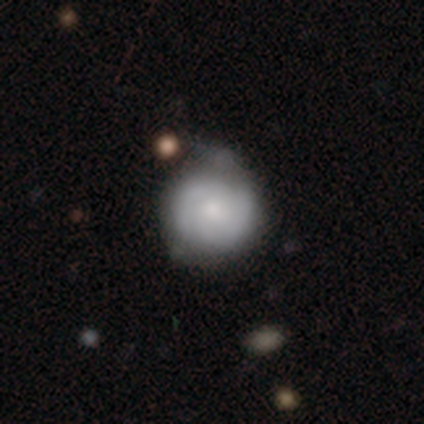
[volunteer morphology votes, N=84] This is possibly a featured or disk galaxy (55%). It is clearly not viewed edge-on (91%). Bar: likely no (71%). Spiral arm pattern: clearly yes (93%). Spiral arm count: possibly 2 (46%). Spiral winding: likely tight (67%). Central bulge: possibly moderate (48%). Merging: marginally none (43%).